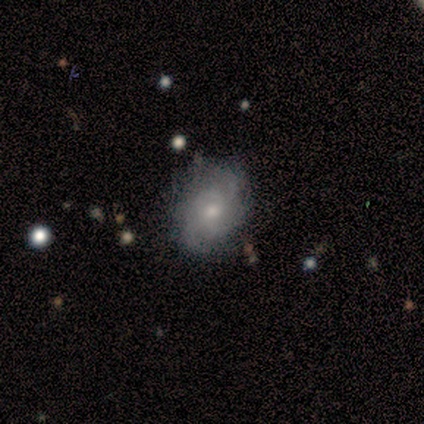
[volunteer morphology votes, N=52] Smooth or featured? 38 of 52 (73%) said featured or disk. Edge-on disk? 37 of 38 (97%) said no. Bar? 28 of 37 (76%) said no. Spiral arms? 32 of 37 (86%) said yes. Spiral winding? 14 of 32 (44%) said tight. Spiral arm count? 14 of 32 (44%) said can't tell. Bulge size? 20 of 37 (54%) said moderate. Merging? 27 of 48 (56%) said none.